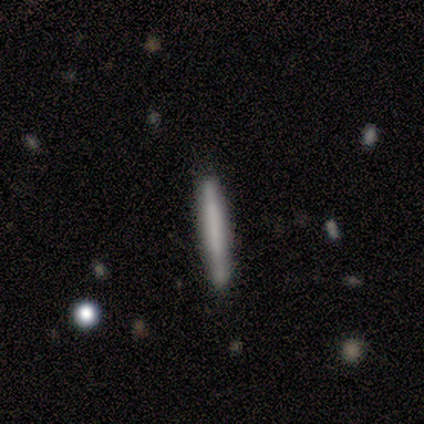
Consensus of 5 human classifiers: smooth_or_featured: smooth (p=0.60) [alt: featured or disk p=0.40]
how_rounded: cigar-shaped (p=1.00)
merging: none (p=0.80) [alt: minor disturbance p=0.20]